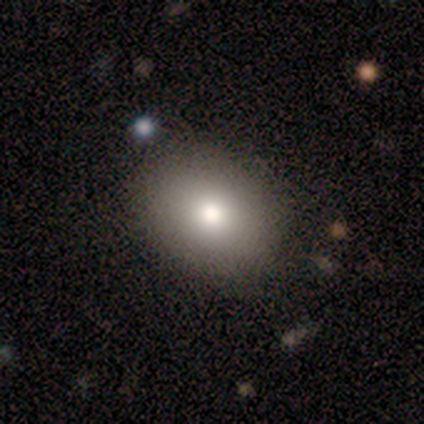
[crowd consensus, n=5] Smooth or featured? 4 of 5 (80%) said smooth. How rounded? 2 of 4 (50%, tied with in between) said round. Merging? 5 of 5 (100%) said none.